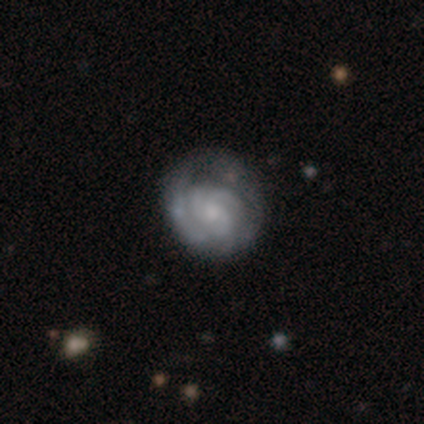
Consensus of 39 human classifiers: Volunteers were most divided on "spiral arm count": 3: 38%, can't tell: 31%, 2: 22%, 1: 6%, 4: 3%, more than 4: 0%. Remaining: edge-on disk — no (100%); smooth or featured — featured or disk (92%); spiral arms — yes (89%); spiral winding — tight (72%); bar — no (69%); bulge size — small (56%); merging — none (34%).